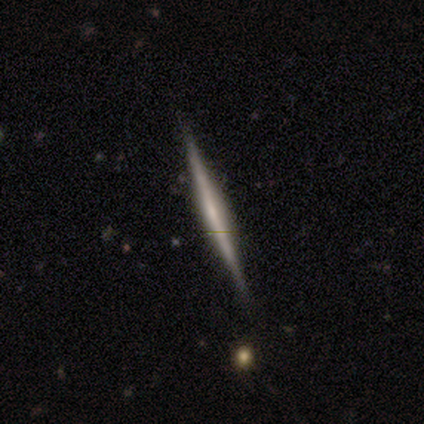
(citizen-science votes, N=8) Smooth or featured? 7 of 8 (88%) said featured or disk. Edge-on disk? 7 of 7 (100%) said yes. Edge-on bulge? 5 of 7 (71%) said none. Merging? 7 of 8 (88%) said none.